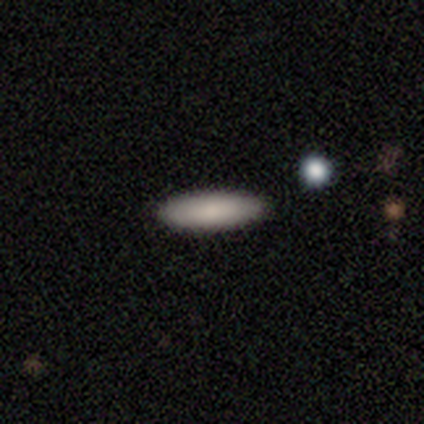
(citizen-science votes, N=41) This appears to be a smooth galaxy with no disk features (88%) that is in between round and cigar-shaped (58%). Merging: none (90%).